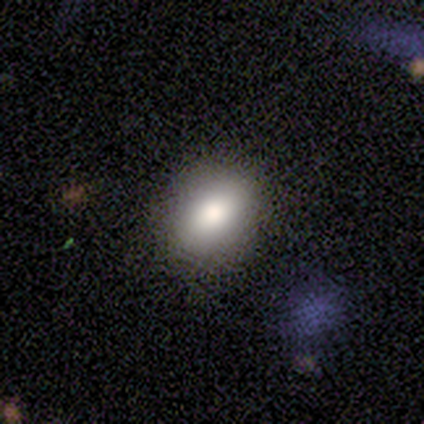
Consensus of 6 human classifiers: Smooth or featured: smooth — 83% (featured or disk — 17%)
How rounded: in between — 80% (round — 20%)
Merging: none — 83% (minor disturbance — 17%)